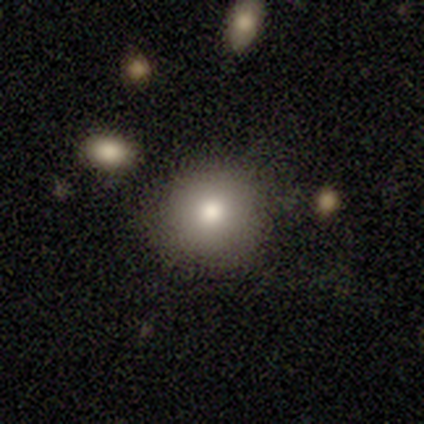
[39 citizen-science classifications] This appears to be a smooth galaxy with no disk features (85%) that is round (97%). Merging: none (81%).